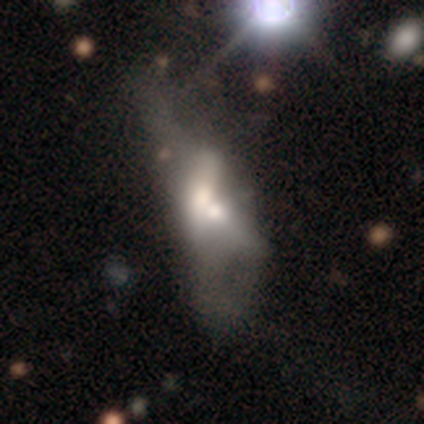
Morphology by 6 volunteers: This is likely a smooth galaxy (67%). How rounded: clearly in between (100%). Merging: likely merger (67%).